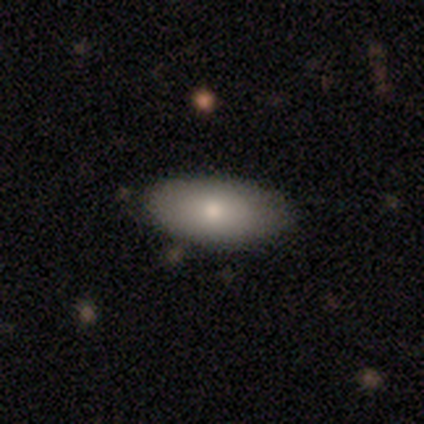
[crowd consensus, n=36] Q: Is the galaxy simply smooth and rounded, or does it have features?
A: smooth — 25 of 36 (69%).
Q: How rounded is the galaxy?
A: in between — 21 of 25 (84%).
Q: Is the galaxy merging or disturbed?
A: none — 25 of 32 (78%).